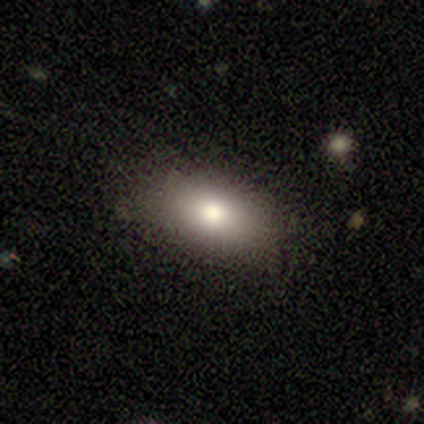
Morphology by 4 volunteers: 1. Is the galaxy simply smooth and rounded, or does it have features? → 75% smooth, 25% featured or disk, 0% star or artifact.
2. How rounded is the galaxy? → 100% in between, 0% round, 0% cigar-shaped.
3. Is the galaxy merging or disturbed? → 75% none, 25% major disturbance, 0% minor disturbance, 0% merger.